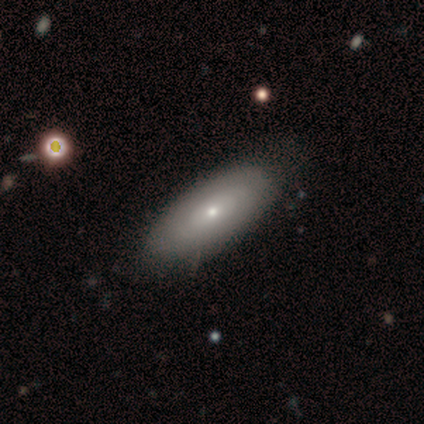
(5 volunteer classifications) A smooth galaxy with no disk features (40%, tied with featured or disk) that is in between round and cigar-shaped (100%). Merging: none (75%).